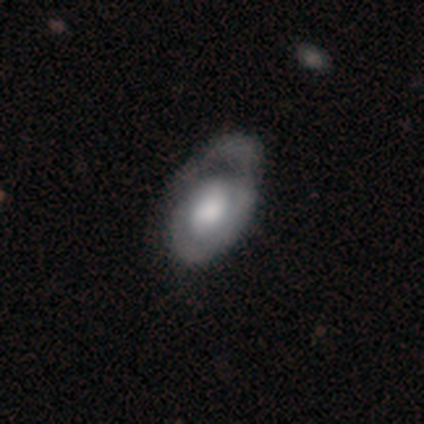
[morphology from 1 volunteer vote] Overall: featured or disk (100%). Edge-on disk: no (100%). Bar: no (100%). Spiral arms: yes (100%). Spiral arm count: 1 (100%). Spiral winding: tight (100%). Bulge size: moderate (100%). Merging: none (100%).